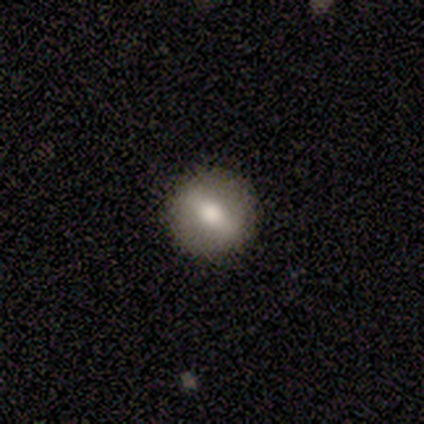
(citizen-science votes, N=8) smooth 62%, featured or disk 38%, star or artifact 0%. Down the decision tree: how rounded — round (80%); merging — none (100%).